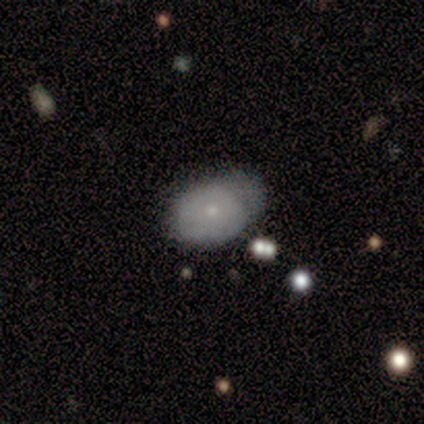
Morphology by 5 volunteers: This is likely a smooth galaxy (60%). How rounded: clearly in between (100%). Merging: marginally none (40%, tied with minor disturbance).